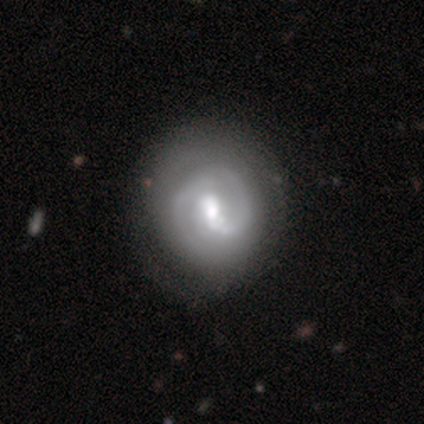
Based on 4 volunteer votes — smooth-or-featured: star or artifact: 50% | smooth: 25% | featured or disk: 25%